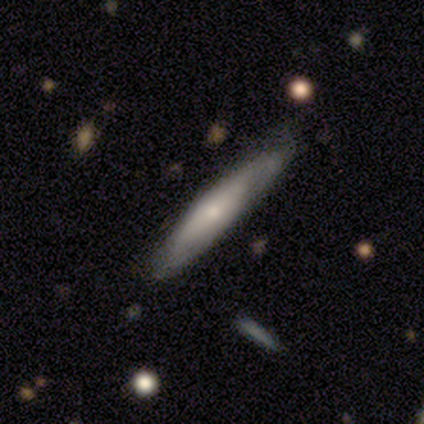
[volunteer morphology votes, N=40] This is possibly a featured or disk galaxy (52%). It is clearly viewed edge-on (86%). Edge-on bulge: clearly rounded (89%). Merging: clearly none (81%).